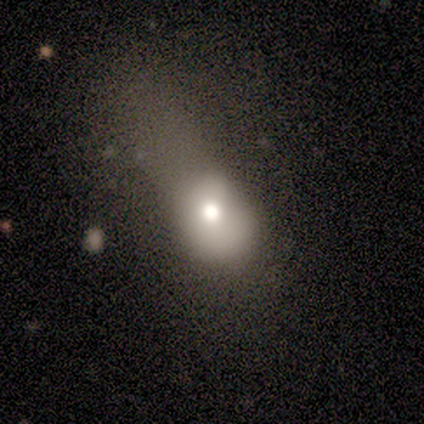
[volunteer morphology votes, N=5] Q: Smooth or featured?
A: smooth (60%); runner-up: featured or disk (40%)
Q: How rounded?
A: in between (100%)
Q: Merging?
A: major disturbance (60%); runner-up: none (20%)